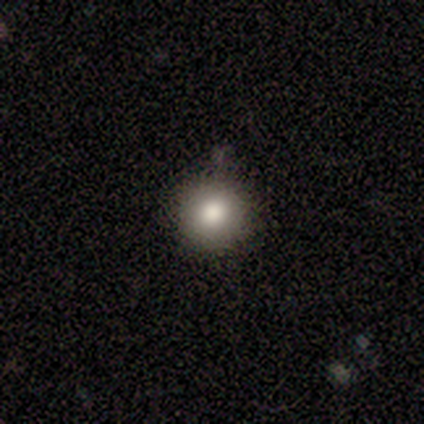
Smooth or featured?
  - smooth: 50% * (tied)
  - featured or disk: 50% * (tied)
  - star or artifact: 0%
How rounded?
  - round: 100% *
  - in between: 0%
  - cigar-shaped: 0%
Merging?
  - none: 100% *
  - minor disturbance: 0%
  - major disturbance: 0%
  - merger: 0%